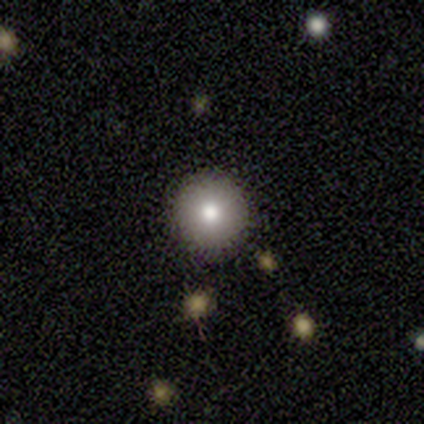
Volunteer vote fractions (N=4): A smooth galaxy with no disk features (75%) that is round (100%). Merging: none (100%).